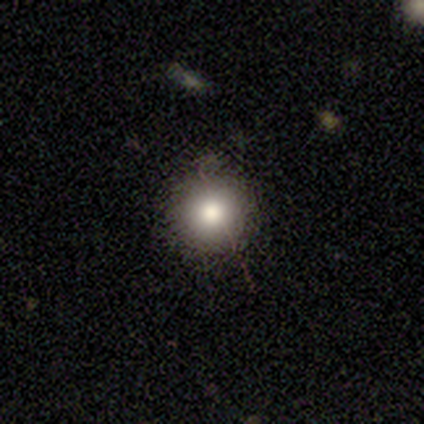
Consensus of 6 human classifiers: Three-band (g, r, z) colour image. It shows a smooth galaxy with no disk features (67%) that is round (100%). Merging: none (80%).